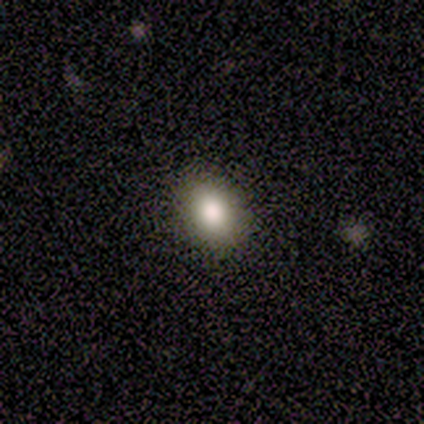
smooth-or-featured: smooth: 80% | star or artifact: 20% | featured or disk: 0%
  how-rounded: in between: 100% | round: 0% | cigar-shaped: 0%
  merging: none: 100% | minor disturbance: 0% | major disturbance: 0% | merger: 0%